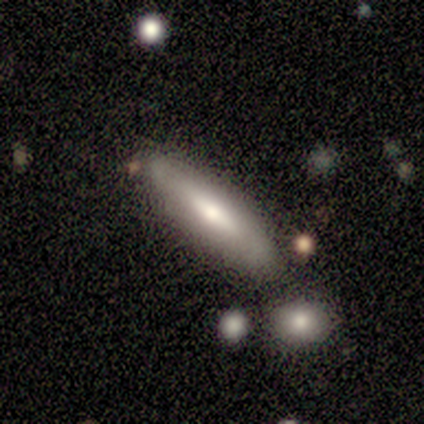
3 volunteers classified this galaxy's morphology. Volunteers were most divided on "edge-on bulge" (2-way tie): none: 50%, rounded: 50%, boxy: 0%; "merging" (3-way tie): none: 33%, major disturbance: 33%, merger: 33%, minor disturbance: 0%. More confident: smooth or featured — featured or disk (100%); edge-on disk — yes (67%).